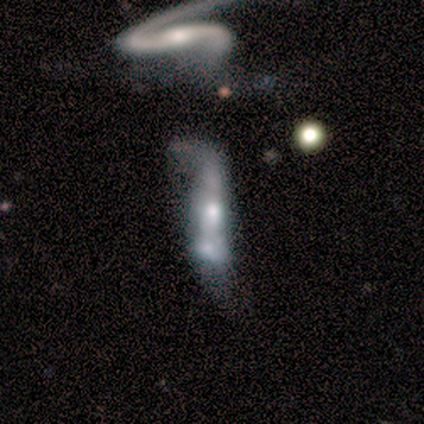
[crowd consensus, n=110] A featured or disk galaxy (73%) with no bar (61%), no spiral arms (59%) and a small central bulge (36%).

Vote fractions:
- Smooth or featured? featured or disk: 73% / smooth: 17% / star or artifact: 10%
- Edge-on disk? no: 74% / yes: 26%
- Bar? no: 61% / weak: 24% / strong: 15%
- Spiral arms? no: 59% / yes: 41%
- Bulge size? small: 36% / moderate: 29% / none: 20% / large: 15% / dominant: 0%
- Merging? merger: 42% / major disturbance: 35% / minor disturbance: 15% / none: 7%